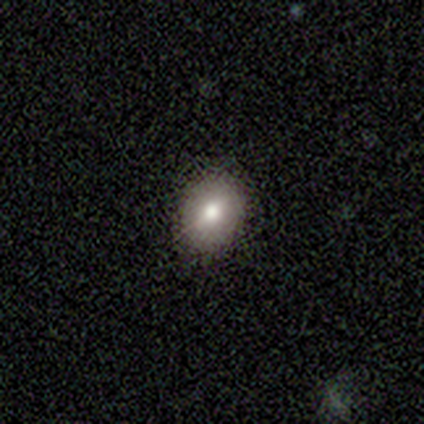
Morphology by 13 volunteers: This appears to be a smooth galaxy with no disk features (77%) that is in between round and cigar-shaped (80%). Merging: none (91%).